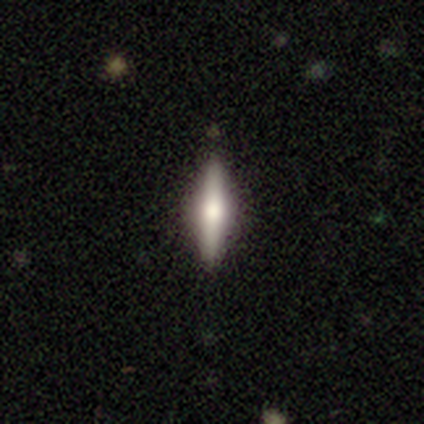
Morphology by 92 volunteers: featured or disk 55%, smooth 40%, star or artifact 4%. Down the decision tree: edge-on disk — yes (94%); edge-on bulge — rounded (88%); merging — none (89%).